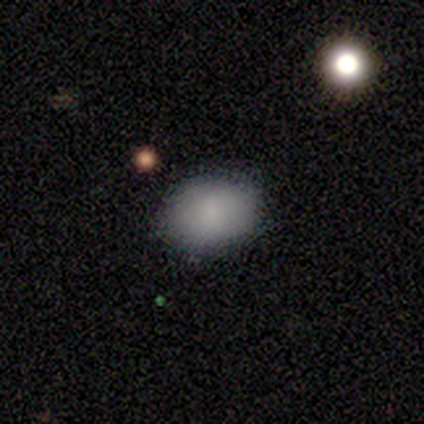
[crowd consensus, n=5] Morphology: type=smooth (100%); roundness=in between (80%); merging=none (80%).